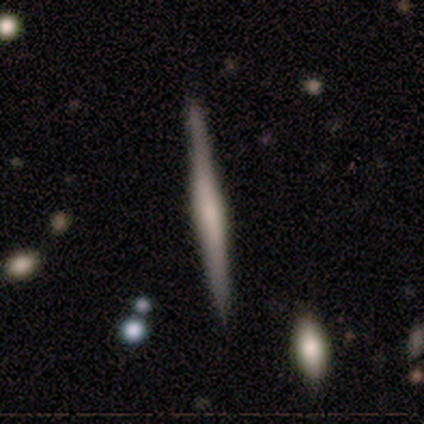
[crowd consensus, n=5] This is marginally a smooth galaxy (40%, tied with featured or disk). How rounded: clearly cigar-shaped (100%). Merging: likely none (75%).